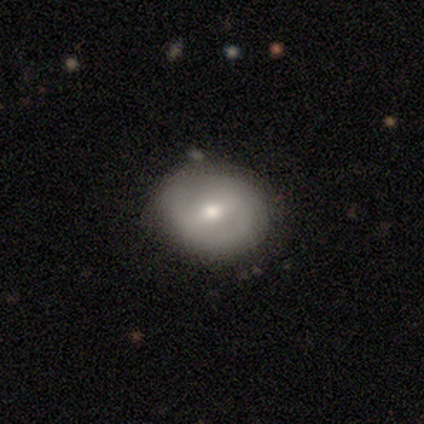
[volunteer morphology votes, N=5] This is clearly a featured or disk galaxy (80%). It is clearly not viewed edge-on (100%). Bar: clearly weak (100%). Spiral arm pattern: possibly yes (50%, tied with no). Spiral arm count: possibly 2 (50%, tied with can't tell). Spiral winding: clearly medium (100%). Central bulge: possibly moderate (50%). Merging: clearly none (80%).